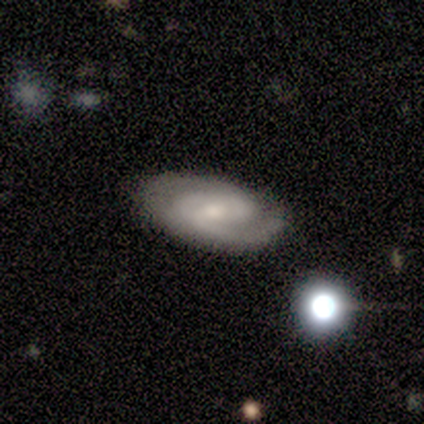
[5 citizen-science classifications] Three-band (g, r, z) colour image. It shows a featured or disk galaxy (100%) with a weak bar (60%), 2 (80%) tight (80%) spiral arms (100%) and a small central bulge (60%). Merging: none (60%).